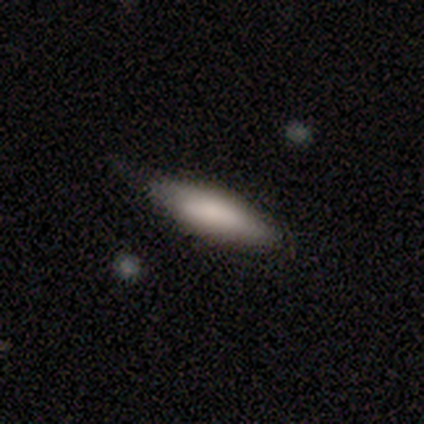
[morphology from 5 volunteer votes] smooth_or_featured: smooth (p=0.60) [alt: featured or disk p=0.40]
how_rounded: in between (p=0.67) [alt: cigar-shaped p=0.33]
merging: minor disturbance (p=0.60) [alt: none p=0.40]